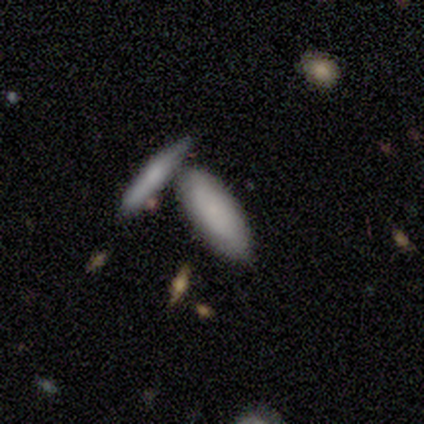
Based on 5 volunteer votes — Q: Smooth or featured?
A: smooth (40%); tied with: star or artifact (40%)
Q: How rounded?
A: in between (50%); tied with: cigar-shaped (50%)
Q: Merging?
A: none (67%); runner-up: merger (33%)